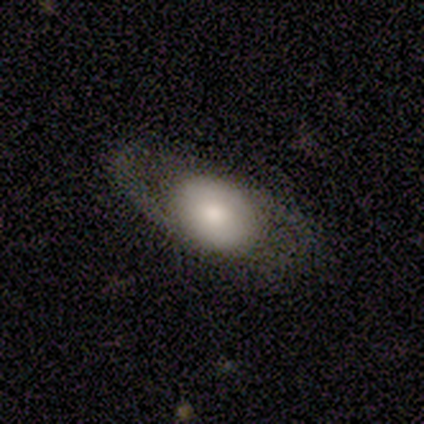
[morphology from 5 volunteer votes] Smooth or featured? smooth (60%)
How rounded? in between (100%)
Merging? none (60%)